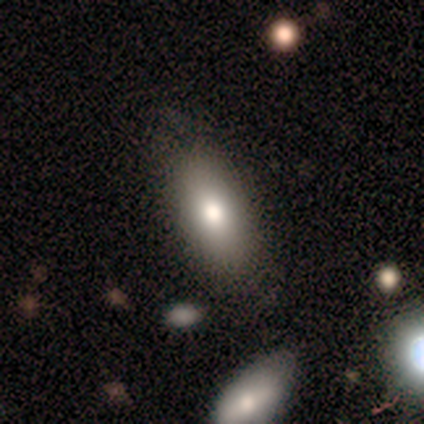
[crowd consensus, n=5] Smooth or featured? 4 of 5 (80%) said smooth. How rounded? 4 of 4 (100%) said in between. Merging? 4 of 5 (80%) said none.